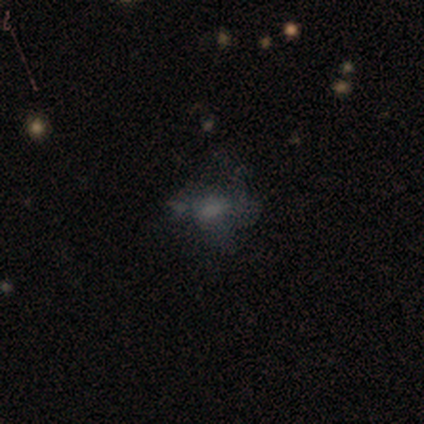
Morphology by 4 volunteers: Smooth or featured? 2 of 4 (50%) said smooth. How rounded? 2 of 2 (100%) said in between. Merging? 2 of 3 (67%) said none.